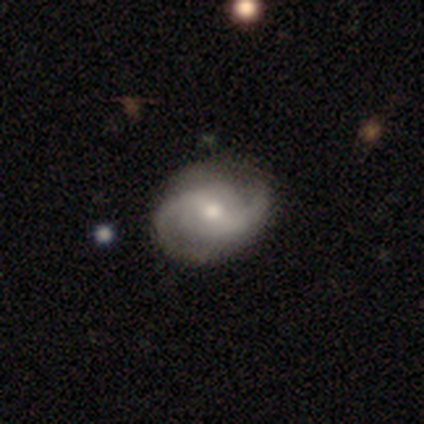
smooth-or-featured: featured or disk: 92% | smooth: 8% | star or artifact: 0%
  disk-edge-on: no: 100% | yes: 0%
    bar: weak: 73% | strong: 18% | no: 9%
    has-spiral-arms: yes: 91% | no: 9%
      spiral-winding: tight: 40% (tied) | medium: 40% (tied) | loose: 20%
      spiral-arm-count: 2: 100% | 1: 0% | 3: 0% | 4: 0% | more than 4: 0% | can't tell: 0%
    bulge-size: moderate: 55% | small: 36% | none: 9% | dominant: 0% | large: 0%
  merging: none: 75% | minor disturbance: 25% | major disturbance: 0% | merger: 0%